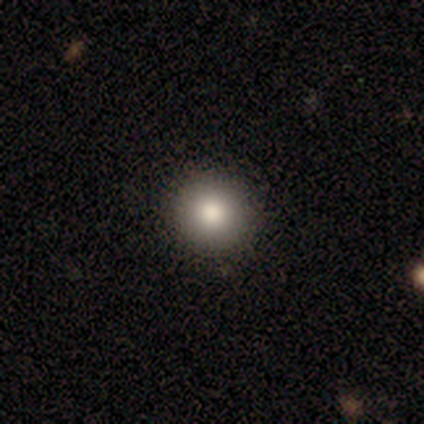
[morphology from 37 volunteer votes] Overall: smooth (70%). How rounded: round (96%). Merging: none (90%).